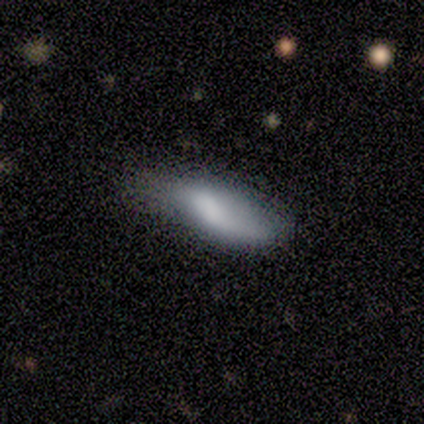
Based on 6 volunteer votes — Smooth or featured?
  - featured or disk: 67% *
  - smooth: 33%
  - star or artifact: 0%
Edge-on disk?
  - no: 75% *
  - yes: 25%
Bar?
  - strong: 33% * (tied)
  - weak: 33% * (tied)
  - no: 33% * (tied)
Spiral arms?
  - yes: 67% *
  - no: 33%
Spiral winding?
  - loose: 100% *
  - tight: 0%
  - medium: 0%
Spiral arm count?
  - 1: 50% * (tied)
  - 2: 50% * (tied)
  - 3: 0%
  - 4: 0%
  - more than 4: 0%
  - can't tell: 0%
Bulge size?
  - large: 33% * (tied)
  - moderate: 33% * (tied)
  - small: 33% * (tied)
  - dominant: 0%
  - none: 0%
Merging?
  - none: 50% *
  - minor disturbance: 33%
  - major disturbance: 17%
  - merger: 0%